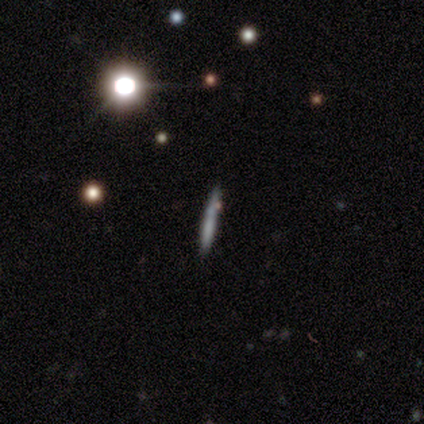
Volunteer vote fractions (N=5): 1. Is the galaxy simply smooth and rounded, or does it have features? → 80% smooth, 20% featured or disk, 0% star or artifact.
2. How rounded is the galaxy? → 100% cigar-shaped, 0% round, 0% in between.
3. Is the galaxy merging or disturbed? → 80% none, 20% minor disturbance, 0% major disturbance, 0% merger.